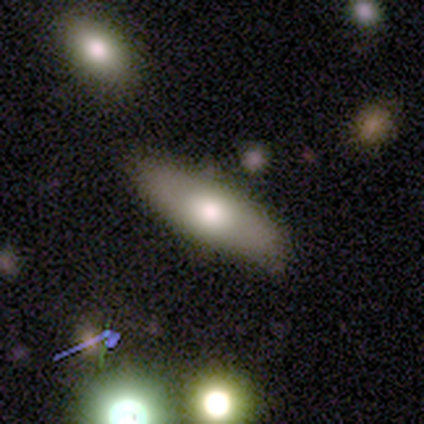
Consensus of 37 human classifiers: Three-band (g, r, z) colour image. It shows a smooth galaxy with no disk features (54%) that is in between round and cigar-shaped (60%). Merging: none (83%).